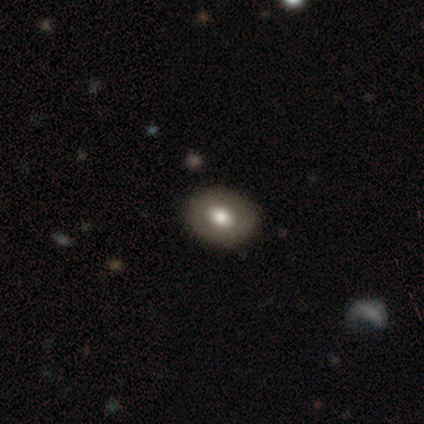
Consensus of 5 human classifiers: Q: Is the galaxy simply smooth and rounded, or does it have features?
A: featured or disk — 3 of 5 (60%).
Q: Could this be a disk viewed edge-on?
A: no — 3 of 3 (100%).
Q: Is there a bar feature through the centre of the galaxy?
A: no — 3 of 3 (100%).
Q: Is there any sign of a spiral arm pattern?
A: no — 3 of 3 (100%).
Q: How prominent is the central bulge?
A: moderate — 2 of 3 (67%).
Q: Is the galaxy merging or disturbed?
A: none — 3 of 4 (75%).